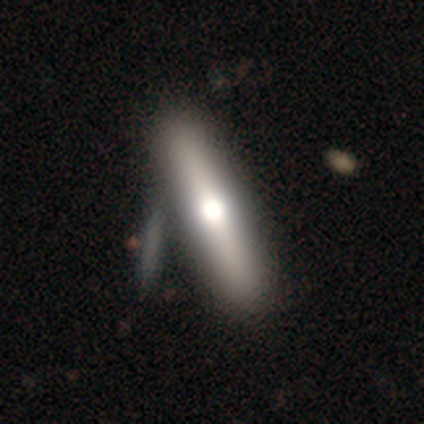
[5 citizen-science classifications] This is likely a smooth galaxy (60%). How rounded: clearly cigar-shaped (100%). Merging: likely none (60%).